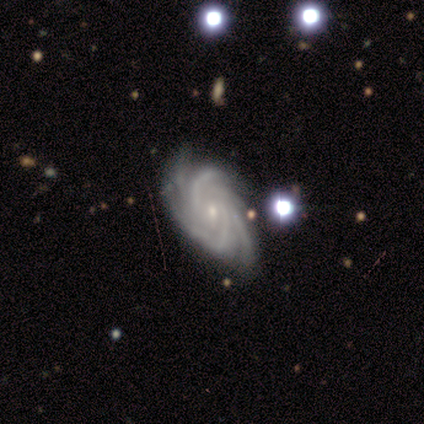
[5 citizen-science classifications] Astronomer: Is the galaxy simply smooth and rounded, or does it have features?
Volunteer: featured or disk — 100%.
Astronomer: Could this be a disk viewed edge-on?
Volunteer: no — 100%.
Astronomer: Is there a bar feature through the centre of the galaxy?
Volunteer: no — 80%.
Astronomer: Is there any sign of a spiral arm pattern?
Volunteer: yes — 100%.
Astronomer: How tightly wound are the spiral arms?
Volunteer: tight — 60%.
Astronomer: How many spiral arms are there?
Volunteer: more than 4 — 60%.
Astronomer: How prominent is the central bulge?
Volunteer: small — 80%.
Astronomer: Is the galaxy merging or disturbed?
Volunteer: none — 80%.